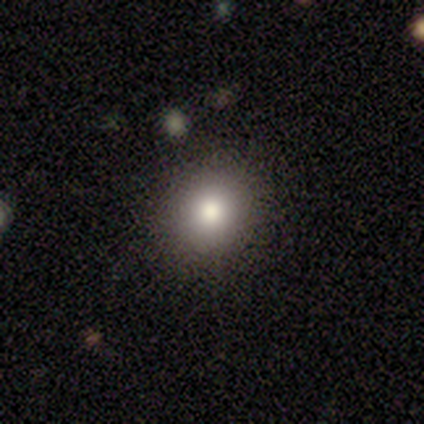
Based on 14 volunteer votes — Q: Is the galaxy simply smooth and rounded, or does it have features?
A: smooth — 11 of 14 (79%).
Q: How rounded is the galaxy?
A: round — 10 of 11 (91%).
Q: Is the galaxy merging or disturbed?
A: none — 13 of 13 (100%).